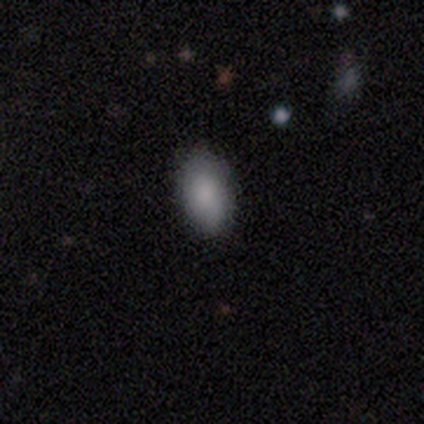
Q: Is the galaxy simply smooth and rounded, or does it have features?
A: smooth — 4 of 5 (80%).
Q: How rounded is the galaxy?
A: in between — 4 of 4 (100%).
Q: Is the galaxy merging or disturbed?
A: none — 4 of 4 (100%).